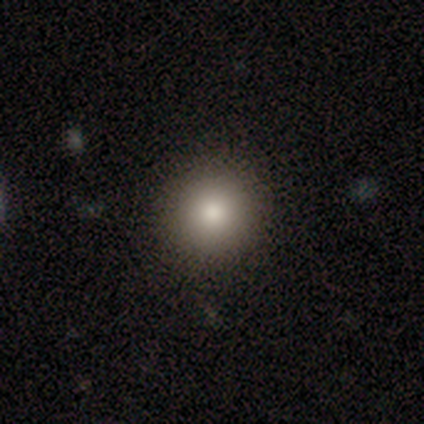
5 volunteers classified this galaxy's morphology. A smooth galaxy with no disk features (80%) that is round (100%).

Vote fractions:
- Smooth or featured? smooth: 80% / featured or disk: 20% / star or artifact: 0%
- How rounded? round: 100% / in between: 0% / cigar-shaped: 0%
- Merging? none: 80% / minor disturbance: 20% / major disturbance: 0% / merger: 0%